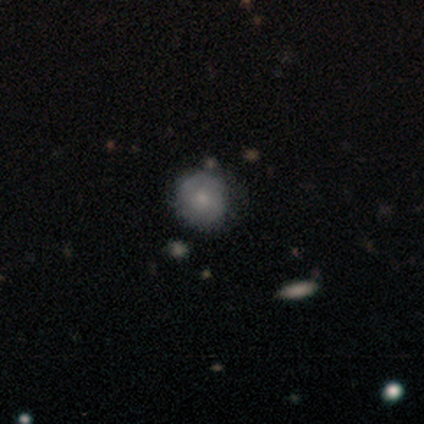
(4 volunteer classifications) Smooth or featured? smooth (50%, tied with featured or disk)
How rounded? round (100%)
Merging? none (75%)